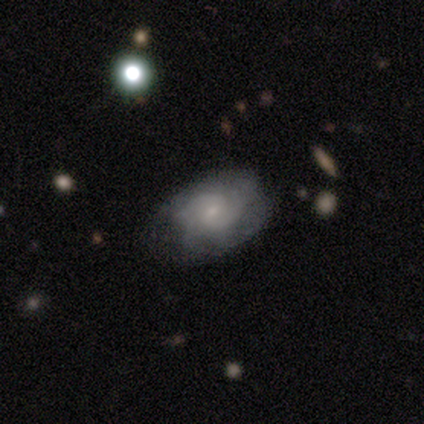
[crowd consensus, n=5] Smooth or featured? featured or disk (100%)
Edge-on disk? no (100%)
Bar? weak (80%)
Spiral arms? yes (100%)
Spiral winding? medium (80%)
Spiral arm count? 2 (40%, tied with 3)
Bulge size? small (60%)
Merging? none (80%)